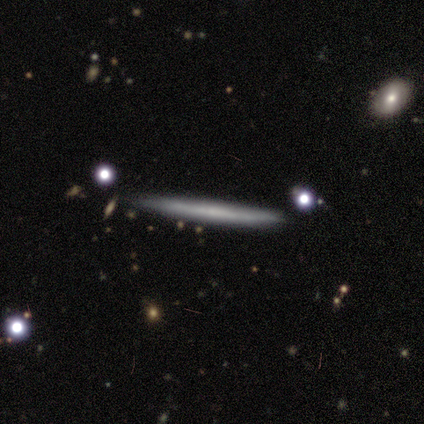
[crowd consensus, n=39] featured or disk 54%, smooth 36%, star or artifact 10%. Down the decision tree: edge-on disk — yes (100%); edge-on bulge — none (90%); merging — none (94%).